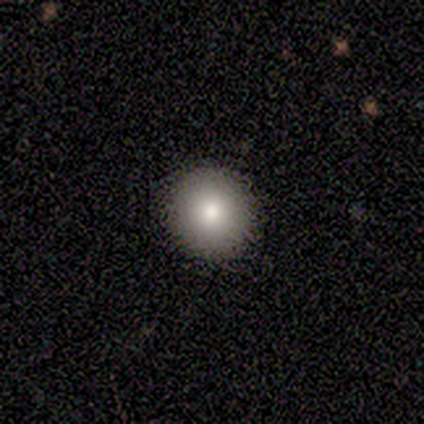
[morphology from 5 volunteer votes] Overall: smooth (80%). How rounded: round (100%). Merging: none (100%).